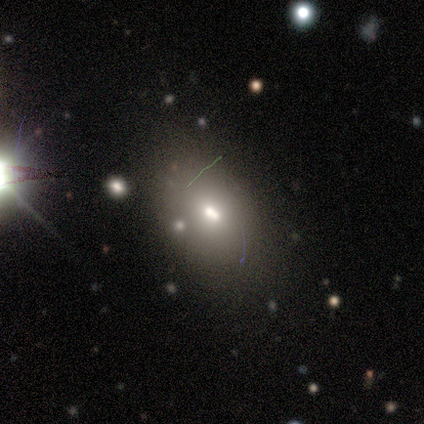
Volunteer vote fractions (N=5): Morphology: type=smooth (80%); roundness=in between (100%); merging=none (50%).